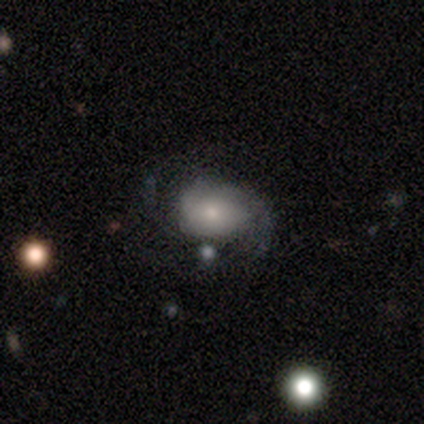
Volunteers were most divided on "spiral winding": medium: 39%, tight: 33%, loose: 28%. More confident: edge-on disk — no (100%); spiral arms — yes (78%); bar — no (74%); spiral arm count — 2 (67%); smooth or featured — featured or disk (61%); merging — none (56%); bulge size — small (52%).